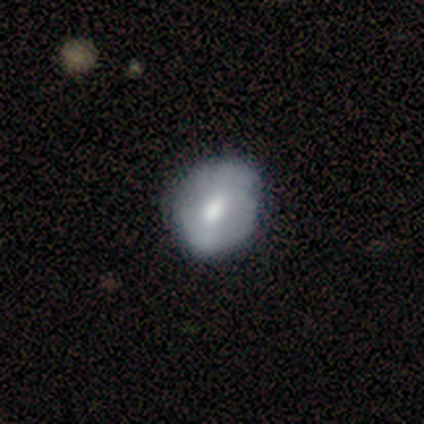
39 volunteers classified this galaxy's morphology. Q: Smooth or featured?
A: featured or disk (54%); runner-up: smooth (46%)
Q: Edge-on disk?
A: no (100%)
Q: Bar?
A: weak (52%); runner-up: no (38%)
Q: Spiral arms?
A: no (52%); runner-up: yes (48%)
Q: Bulge size?
A: moderate (57%); runner-up: large (19%)
Q: Merging?
A: none (49%); runner-up: minor disturbance (13%)